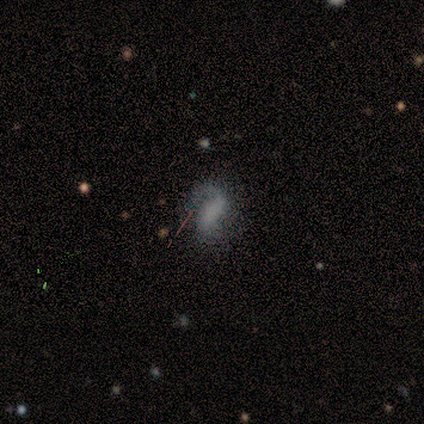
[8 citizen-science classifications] smooth_or_featured: featured or disk (p=0.50) [alt: smooth p=0.38]
disk_edge_on: no (p=0.75) [alt: yes p=0.25]
bar: no (p=0.67) [alt: weak p=0.33]
has_spiral_arms: no (p=0.67) [alt: yes p=0.33]
bulge_size: none (p=1.00)
merging: none (p=0.71) [alt: minor disturbance p=0.14]